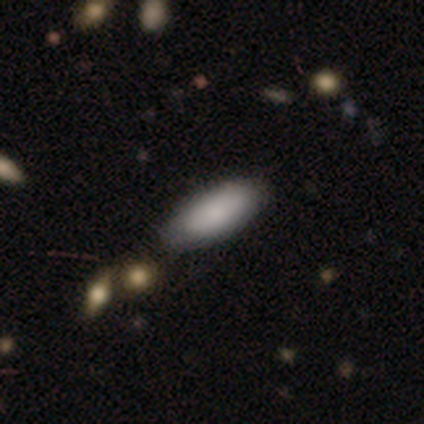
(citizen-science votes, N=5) smooth 100%, featured or disk 0%, star or artifact 0%. Down the decision tree: how rounded — in between (100%); merging — none (60%).